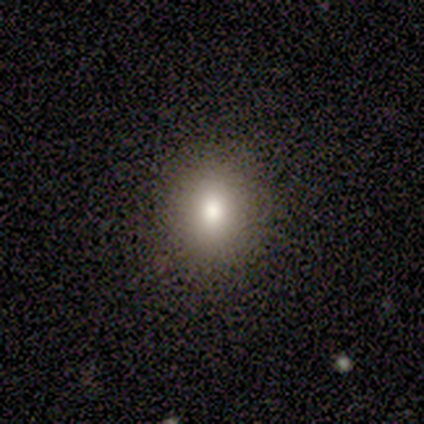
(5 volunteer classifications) smooth 100%, featured or disk 0%, star or artifact 0%. Down the decision tree: how rounded — round (80%); merging — none (80%).